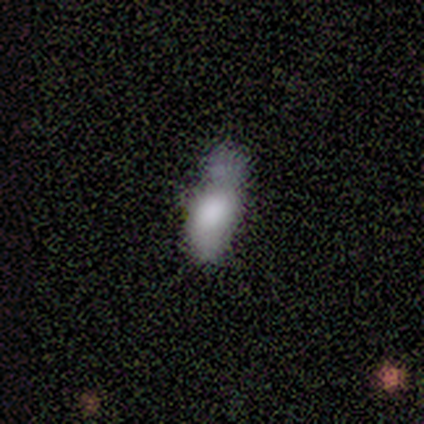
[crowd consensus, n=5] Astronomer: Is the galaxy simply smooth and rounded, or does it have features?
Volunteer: smooth — 100%.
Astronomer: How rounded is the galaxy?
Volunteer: in between — 100%.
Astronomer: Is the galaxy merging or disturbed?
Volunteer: minor disturbance — 40% (runner-up: none, 20%).